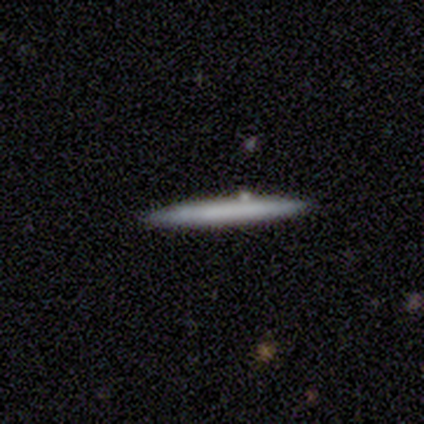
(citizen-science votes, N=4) smooth-or-featured: featured or disk: 50% | smooth: 25% | star or artifact: 25%
  disk-edge-on: yes: 100% | no: 0%
    edge-on-bulge: none: 100% | boxy: 0% | rounded: 0%
  merging: none: 100% | minor disturbance: 0% | major disturbance: 0% | merger: 0%